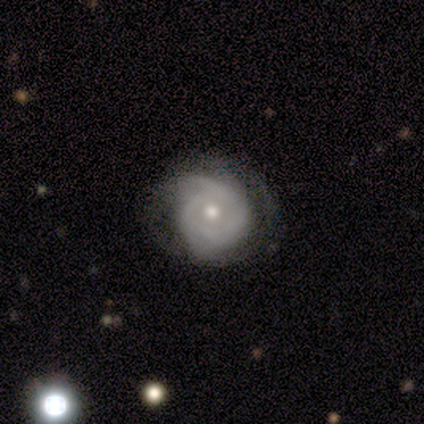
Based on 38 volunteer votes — featured or disk 71%, smooth 26%, star or artifact 3%. Down the decision tree: edge-on disk — no (100%); bar — no (81%); spiral arms — yes (78%); spiral arm count — 2 (43%); spiral winding — tight (48%); bulge size — moderate (67%); merging — none (59%).